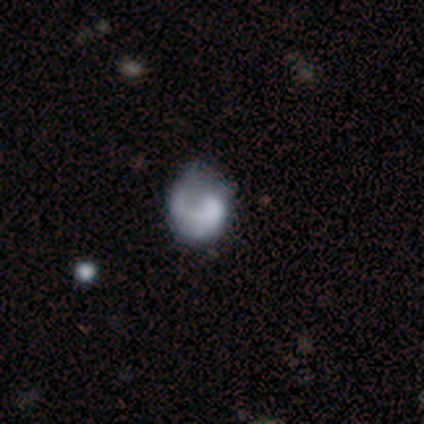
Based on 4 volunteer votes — smooth-or-featured: featured or disk: 100% | smooth: 0% | star or artifact: 0%
  disk-edge-on: no: 100% | yes: 0%
    bar: no: 100% | strong: 0% | weak: 0%
    has-spiral-arms: no: 100% | yes: 0%
    bulge-size: large: 25% (tied) | moderate: 25% (tied) | small: 25% (tied) | none: 25% (tied) | dominant: 0%
  merging: none: 75% | major disturbance: 25% | minor disturbance: 0% | merger: 0%